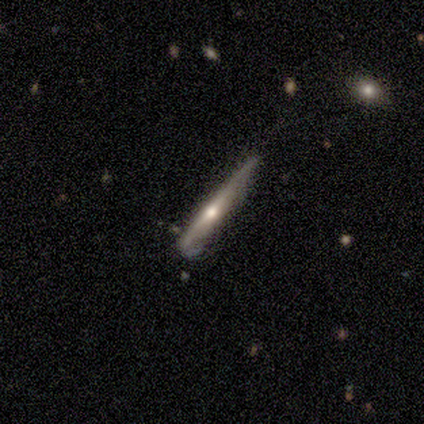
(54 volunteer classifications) featured or disk 78%, smooth 15%, star or artifact 7%. Down the decision tree: edge-on disk — yes (100%); edge-on bulge — rounded (81%); merging — none (48%).